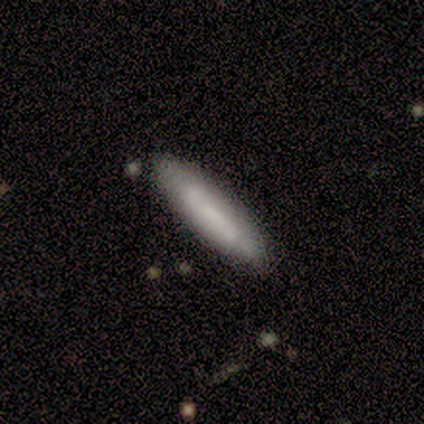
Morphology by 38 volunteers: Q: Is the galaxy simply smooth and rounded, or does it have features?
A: smooth — 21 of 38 (55%).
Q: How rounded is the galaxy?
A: cigar-shaped — 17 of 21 (81%).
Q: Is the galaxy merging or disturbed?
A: none — 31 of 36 (86%).